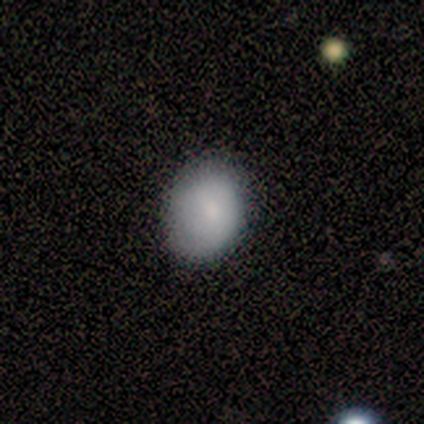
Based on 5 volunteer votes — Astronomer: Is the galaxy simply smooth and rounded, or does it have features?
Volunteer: smooth — 100%.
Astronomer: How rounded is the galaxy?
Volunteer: in between — 80%.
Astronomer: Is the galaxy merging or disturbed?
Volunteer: none — 100%.